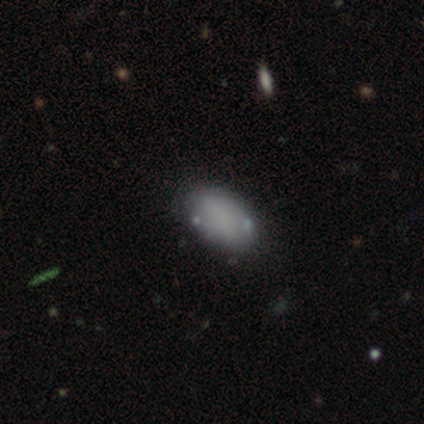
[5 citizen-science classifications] Q: Smooth or featured?
A: smooth (100%)
Q: How rounded?
A: in between (100%)
Q: Merging?
A: none (80%); runner-up: minor disturbance (20%)